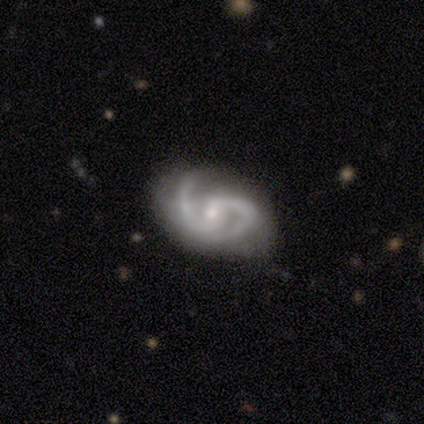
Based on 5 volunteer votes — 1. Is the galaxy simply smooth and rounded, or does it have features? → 100% featured or disk, 0% smooth, 0% star or artifact.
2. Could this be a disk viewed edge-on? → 100% no, 0% yes.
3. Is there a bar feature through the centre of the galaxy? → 60% weak, 40% no, 0% strong.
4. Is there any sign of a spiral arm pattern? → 100% yes, 0% no.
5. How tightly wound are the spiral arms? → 80% medium, 20% tight, 0% loose.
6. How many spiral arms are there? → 100% 2, 0% 1, 0% 3, 0% 4, 0% more than 4, 0% can't tell.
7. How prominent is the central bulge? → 80% small, 20% moderate, 0% dominant, 0% large, 0% none.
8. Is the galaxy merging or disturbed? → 60% minor disturbance, 40% none, 0% major disturbance, 0% merger.